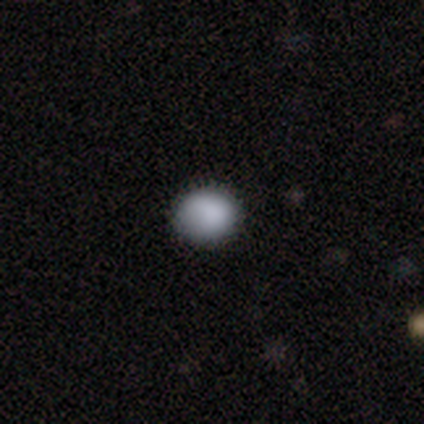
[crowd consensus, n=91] Overall: smooth (87%). How rounded: round (75%). Merging: none (89%).